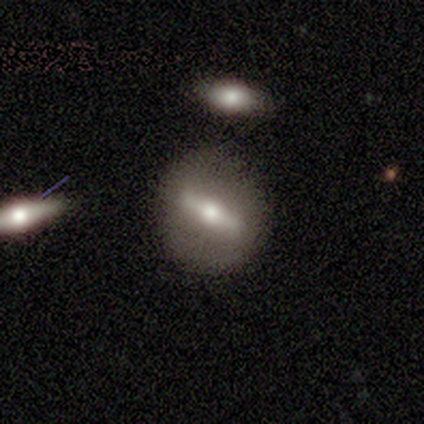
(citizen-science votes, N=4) Smooth or featured?
  - featured or disk: 100% *
  - smooth: 0%
  - star or artifact: 0%
Edge-on disk?
  - no: 75% *
  - yes: 25%
Bar?
  - strong: 67% *
  - weak: 33%
  - no: 0%
Spiral arms?
  - no: 100% *
  - yes: 0%
Bulge size?
  - small: 67% *
  - moderate: 33%
  - dominant: 0%
  - large: 0%
  - none: 0%
Merging?
  - none: 100% *
  - minor disturbance: 0%
  - major disturbance: 0%
  - merger: 0%